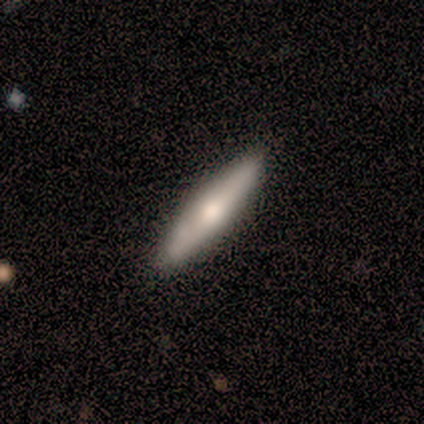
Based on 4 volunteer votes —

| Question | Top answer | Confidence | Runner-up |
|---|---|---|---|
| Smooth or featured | smooth | 100% | — |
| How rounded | cigar-shaped | 100% | — |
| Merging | none | 100% | — |